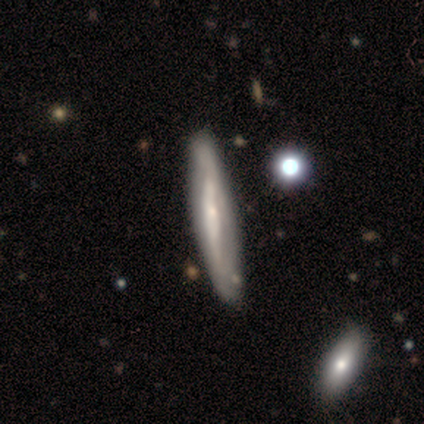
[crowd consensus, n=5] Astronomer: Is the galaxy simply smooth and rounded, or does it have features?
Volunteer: featured or disk — 60%.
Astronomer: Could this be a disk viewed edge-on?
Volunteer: yes — 100%.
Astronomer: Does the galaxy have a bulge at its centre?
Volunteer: boxy — 33%, tied with none and rounded at 33%.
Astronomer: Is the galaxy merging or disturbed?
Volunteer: none — 100%.